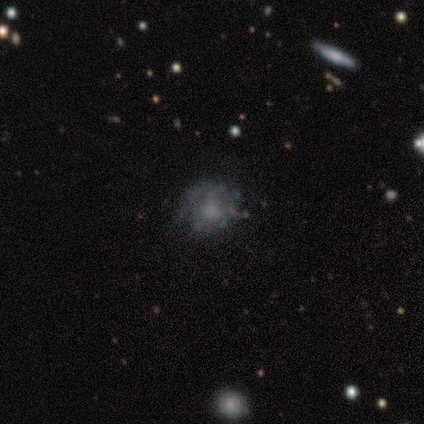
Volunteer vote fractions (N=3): smooth_or_featured: smooth (p=0.33) [tied with: featured or disk p=0.33, star or artifact p=0.33]
how_rounded: in between (p=1.00)
merging: none (p=0.50) [tied with: major disturbance p=0.50]